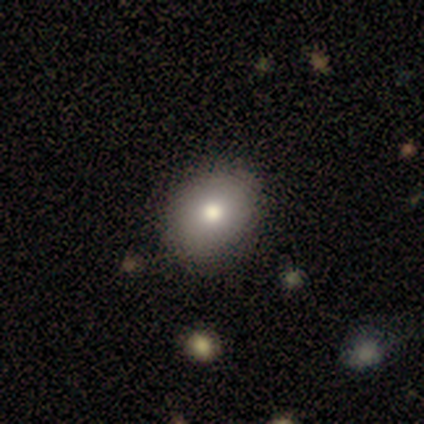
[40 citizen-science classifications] Q: Smooth or featured?
A: smooth (80%); runner-up: featured or disk (10%)
Q: How rounded?
A: in between (59%); runner-up: round (41%)
Q: Merging?
A: none (78%); runner-up: minor disturbance (19%)